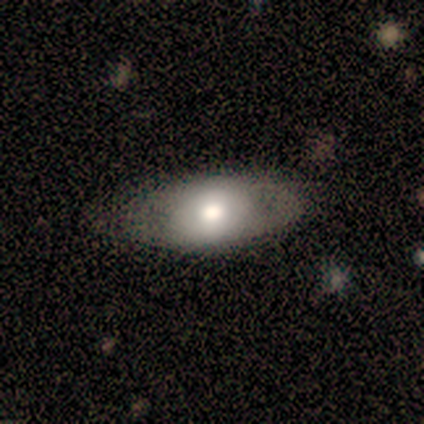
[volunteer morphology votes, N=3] smooth-or-featured: featured or disk: 67% | star or artifact: 33% | smooth: 0%
  disk-edge-on: no: 100% | yes: 0%
    bar: no: 100% | strong: 0% | weak: 0%
    has-spiral-arms: no: 100% | yes: 0%
    bulge-size: large: 50% (tied) | moderate: 50% (tied) | dominant: 0% | small: 0% | none: 0%
  merging: none: 100% | minor disturbance: 0% | major disturbance: 0% | merger: 0%